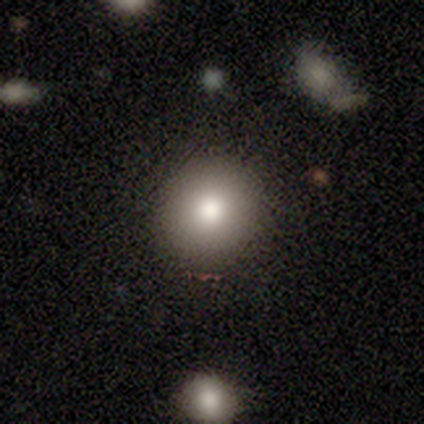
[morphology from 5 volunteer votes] Smooth or featured? 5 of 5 (100%) said smooth. How rounded? 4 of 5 (80%) said round. Merging? 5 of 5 (100%) said none.